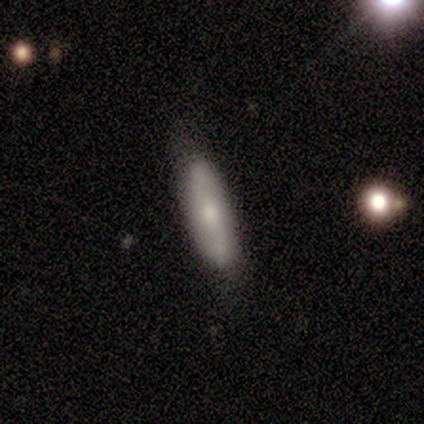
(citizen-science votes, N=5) A featured or disk galaxy (60%) with a strong bar (50%, tied with weak), 2 (100%) medium (50%, tied with loose) spiral arms (100%) and a moderate central bulge (50%, tied with small).

Vote fractions:
- Smooth or featured? featured or disk: 60% / smooth: 40% / star or artifact: 0%
- Edge-on disk? no: 67% / yes: 33%
- Bar? strong: 50% (tied) / weak: 50% (tied) / no: 0%
- Spiral arms? yes: 100% / no: 0%
- Spiral winding? medium: 50% (tied) / loose: 50% (tied) / tight: 0%
- Spiral arm count? 2: 100% / 1: 0% / 3: 0% / 4: 0% / more than 4: 0% / can't tell: 0%
- Bulge size? moderate: 50% (tied) / small: 50% (tied) / dominant: 0% / large: 0% / none: 0%
- Merging? none: 60% / minor disturbance: 20% / merger: 20% / major disturbance: 0%